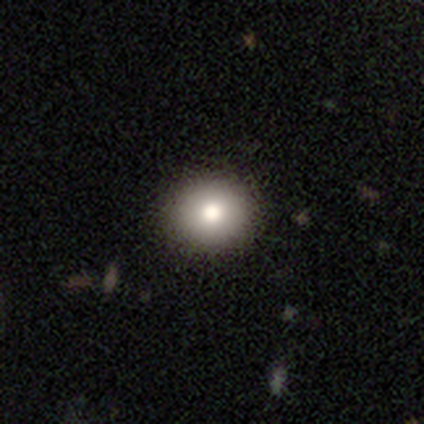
Overall: smooth (73%). How rounded: round (81%). Merging: none (68%).